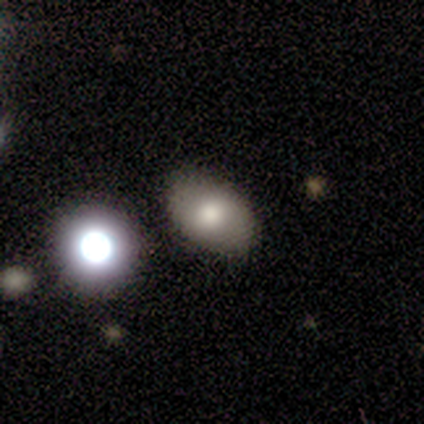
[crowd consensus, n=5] Smooth or featured?
  - smooth: 80% *
  - star or artifact: 20%
  - featured or disk: 0%
How rounded?
  - in between: 100% *
  - round: 0%
  - cigar-shaped: 0%
Merging?
  - none: 50% *
  - minor disturbance: 25%
  - merger: 25%
  - major disturbance: 0%